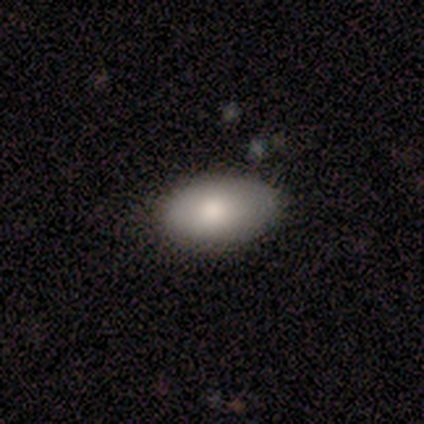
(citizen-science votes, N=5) smooth 40% (tied), featured or disk 40% (tied), star or artifact 20%. Down the decision tree: how rounded — in between (100%); merging — none (75%).